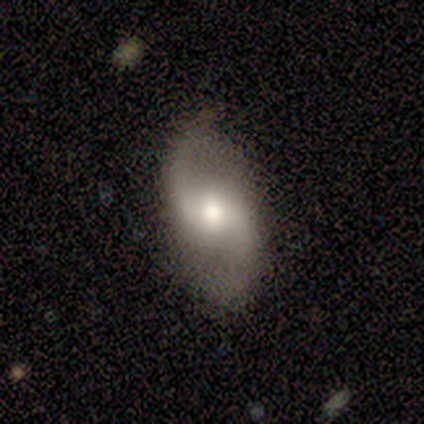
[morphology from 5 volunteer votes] A featured or disk galaxy (80%) with a weak bar (75%), 2 (100%) loose (67%) spiral arms (75%) and a moderate central bulge (75%). Merging: none (100%).